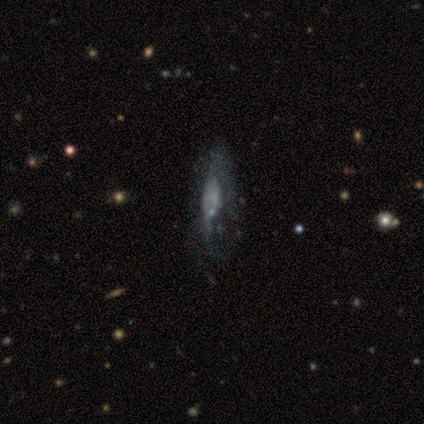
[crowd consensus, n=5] This is likely a featured or disk galaxy (60%). It is clearly not viewed edge-on (100%). Bar: clearly no (100%). Spiral arm pattern: likely no (67%). Central bulge: likely none (67%). Merging: possibly none (50%).